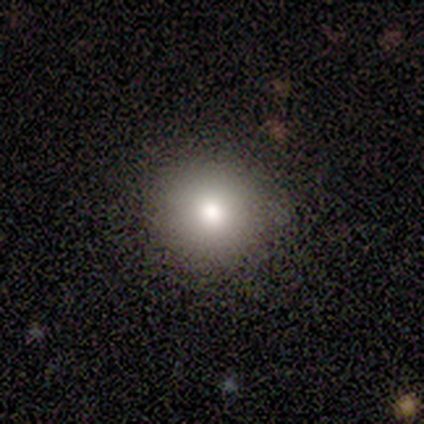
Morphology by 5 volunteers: A smooth galaxy with no disk features (80%) that is round (75%). Merging: none (80%).